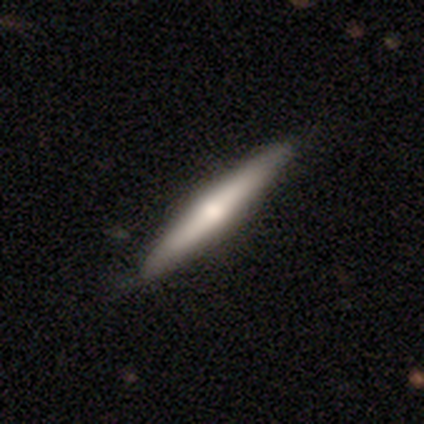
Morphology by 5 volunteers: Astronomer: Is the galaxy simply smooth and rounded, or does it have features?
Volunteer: smooth — 40%, tied with featured or disk at 40%.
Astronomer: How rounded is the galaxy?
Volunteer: cigar-shaped — 100%.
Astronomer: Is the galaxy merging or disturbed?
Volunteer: none — 100%.